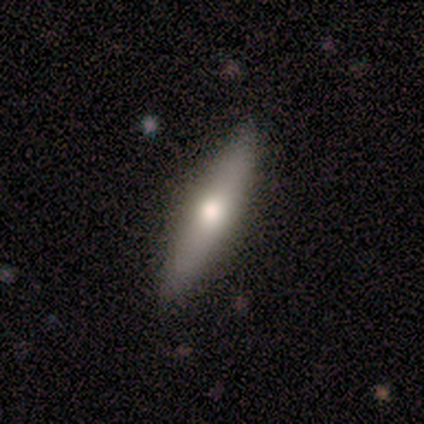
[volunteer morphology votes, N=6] type=smooth (100%); roundness=cigar-shaped (100%); merging=none (83%).